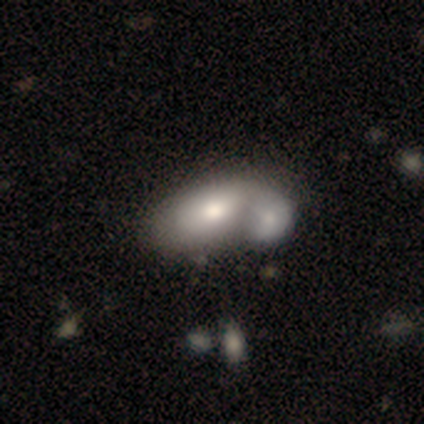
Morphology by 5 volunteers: Smooth or featured? 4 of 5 (80%) said smooth. How rounded? 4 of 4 (100%) said in between. Merging? 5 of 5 (100%) said merger.